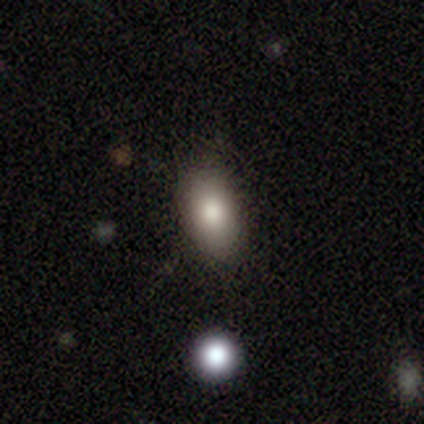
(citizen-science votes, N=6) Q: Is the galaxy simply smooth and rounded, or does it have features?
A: smooth — 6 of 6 (100%).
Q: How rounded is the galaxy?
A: in between — 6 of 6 (100%).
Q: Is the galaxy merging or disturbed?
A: none — 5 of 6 (83%).